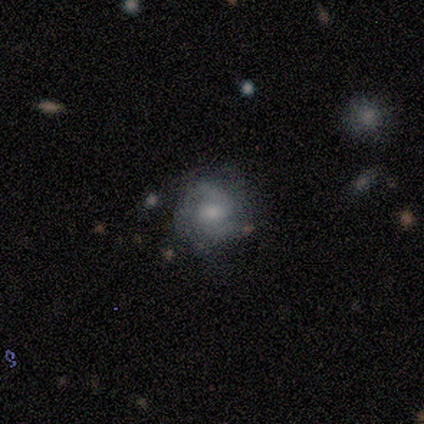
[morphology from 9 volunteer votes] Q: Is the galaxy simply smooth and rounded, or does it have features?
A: featured or disk — 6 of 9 (67%).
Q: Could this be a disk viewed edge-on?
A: no — 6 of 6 (100%).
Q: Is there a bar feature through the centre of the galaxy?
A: weak — 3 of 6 (50%, tied with no).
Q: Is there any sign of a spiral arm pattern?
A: yes — 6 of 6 (100%).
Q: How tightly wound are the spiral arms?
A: medium — 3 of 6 (50%).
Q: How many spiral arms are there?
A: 2 — 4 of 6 (67%).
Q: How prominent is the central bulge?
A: moderate — 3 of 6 (50%).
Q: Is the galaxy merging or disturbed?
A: none — 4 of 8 (50%).